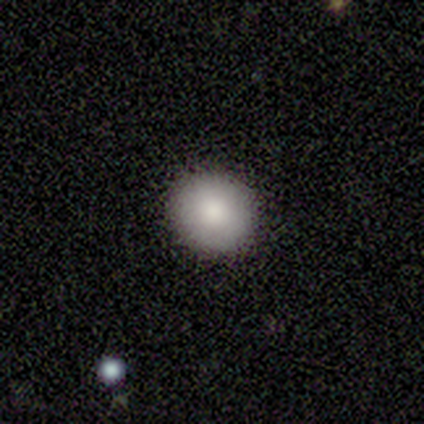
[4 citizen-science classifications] Smooth or featured?
  - smooth: 100% *
  - featured or disk: 0%
  - star or artifact: 0%
How rounded?
  - round: 50% * (tied)
  - in between: 50% * (tied)
  - cigar-shaped: 0%
Merging?
  - none: 100% *
  - minor disturbance: 0%
  - major disturbance: 0%
  - merger: 0%